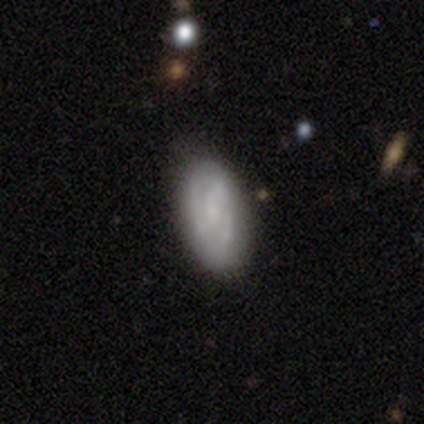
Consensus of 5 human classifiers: Smooth or featured: featured or disk — 60% (smooth — 40%)
Edge-on disk: no — 100%
Bar: weak — 67% (no — 33%)
Spiral arms: yes — 100%
Spiral winding: tight — 100%
Spiral arm count: can't tell — 67% (2 — 33%)
Bulge size: small — 100%
Merging: none — 60% (minor disturbance — 40%)